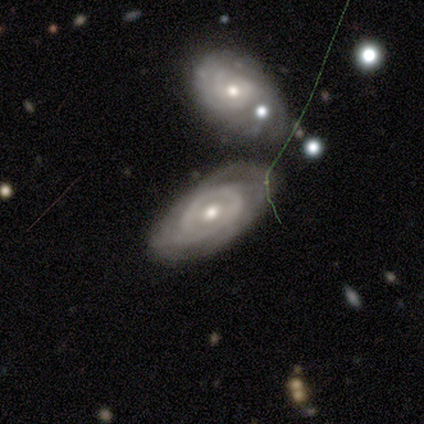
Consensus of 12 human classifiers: Smooth or featured? 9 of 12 (75%) said featured or disk. Edge-on disk? 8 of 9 (89%) said no. Bar? 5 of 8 (62%) said no. Spiral arms? 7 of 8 (88%) said yes. Spiral winding? 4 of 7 (57%) said tight. Spiral arm count? 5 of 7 (71%) said 2. Bulge size? 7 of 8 (88%) said moderate. Merging? 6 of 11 (55%) said none.